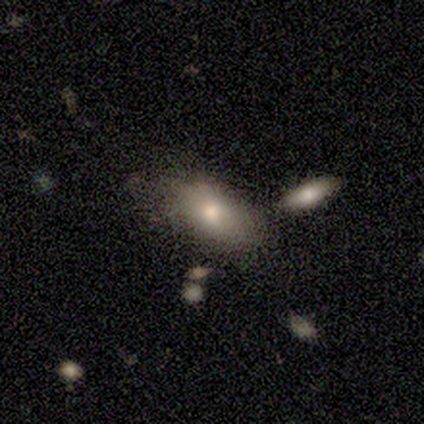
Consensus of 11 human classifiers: Morphology: type=smooth (82%); roundness=in between (89%); merging=none (70%).